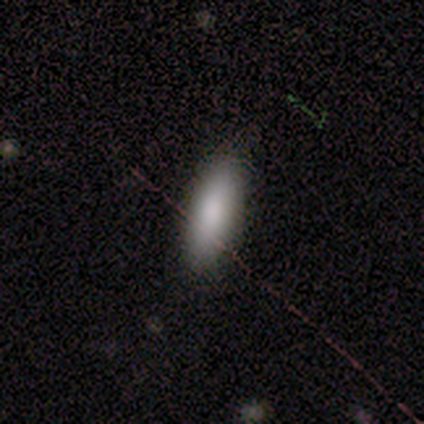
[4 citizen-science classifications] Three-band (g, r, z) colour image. It shows a smooth galaxy with no disk features (100%) that is in between round and cigar-shaped (50%, tied with cigar-shaped). Merging: none (100%).